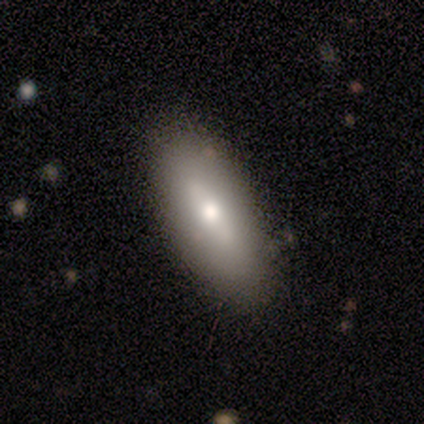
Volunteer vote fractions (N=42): Smooth or featured?
  - smooth: 57% *
  - featured or disk: 43%
  - star or artifact: 0%
How rounded?
  - in between: 83% *
  - cigar-shaped: 17%
  - round: 0%
Merging?
  - none: 90% *
  - minor disturbance: 10%
  - major disturbance: 0%
  - merger: 0%